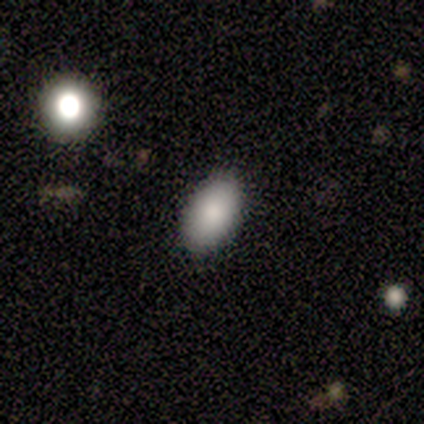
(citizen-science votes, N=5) This appears to be a smooth galaxy with no disk features (80%) that is in between round and cigar-shaped (100%). Merging: none (100%).